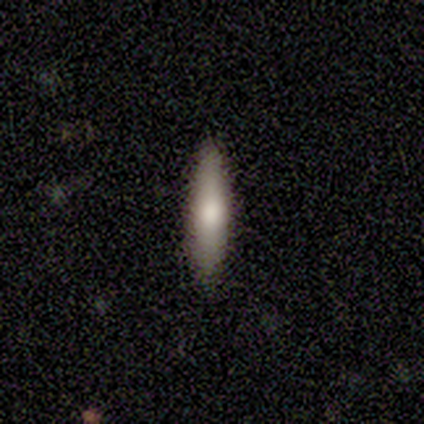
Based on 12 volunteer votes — A smooth galaxy with no disk features (83%) that is cigar-shaped (80%).

Vote fractions:
- Smooth or featured? smooth: 83% / featured or disk: 17% / star or artifact: 0%
- How rounded? cigar-shaped: 80% / in between: 20% / round: 0%
- Merging? none: 92% / major disturbance: 8% / minor disturbance: 0% / merger: 0%